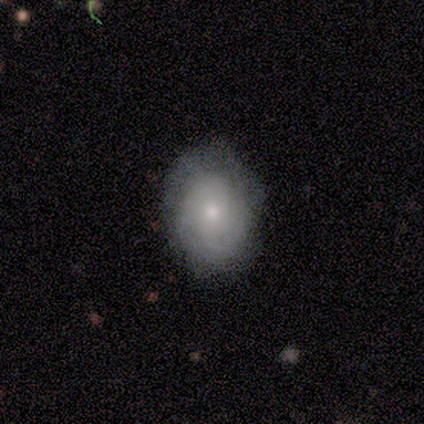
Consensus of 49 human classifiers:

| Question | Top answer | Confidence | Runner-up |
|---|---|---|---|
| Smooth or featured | featured or disk | 73% | smooth (22%) |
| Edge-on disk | no | 92% | yes (8%) |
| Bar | no | 85% | weak (12%) |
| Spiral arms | yes | 94% | no (6%) |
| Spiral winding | tight | 68% | medium (29%) |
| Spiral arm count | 2 | 39% | can't tell (35%) |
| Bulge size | moderate | 58% | small (42%) |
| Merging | none | 74% | minor disturbance (19%) |